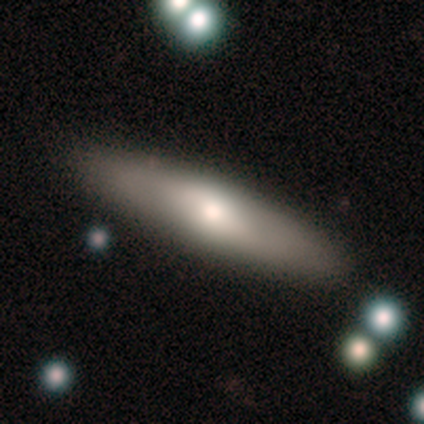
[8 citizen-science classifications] Q: Smooth or featured?
A: smooth (62%); runner-up: featured or disk (25%)
Q: How rounded?
A: cigar-shaped (60%); runner-up: in between (40%)
Q: Merging?
A: none (100%)